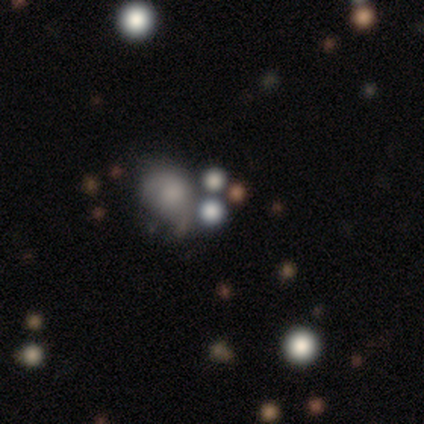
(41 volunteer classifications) Q: Smooth or featured?
A: smooth (49%); runner-up: star or artifact (44%)
Q: How rounded?
A: round (65%); runner-up: in between (35%)
Q: Merging?
A: none (52%); runner-up: merger (26%)